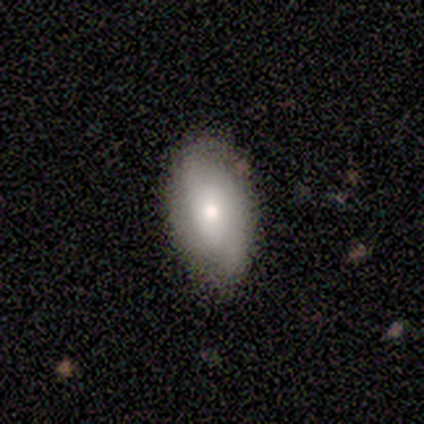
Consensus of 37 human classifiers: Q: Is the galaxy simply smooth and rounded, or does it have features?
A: smooth — 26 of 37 (70%).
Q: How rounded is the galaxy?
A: in between — 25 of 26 (96%).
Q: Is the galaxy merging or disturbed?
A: none — 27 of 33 (82%).